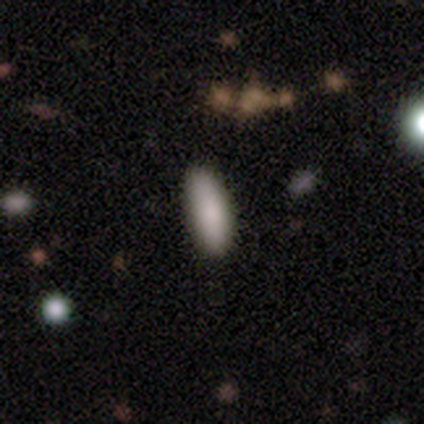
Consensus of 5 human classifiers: smooth_or_featured: smooth (p=0.80) [alt: featured or disk p=0.20]
how_rounded: in between (p=0.50) [tied with: cigar-shaped p=0.50]
merging: none (p=0.80) [alt: major disturbance p=0.20]